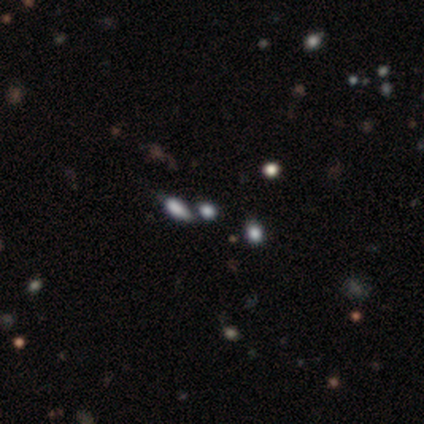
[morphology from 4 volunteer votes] This is possibly a smooth galaxy (50%). How rounded: clearly in between (100%). Merging: likely merger (67%).